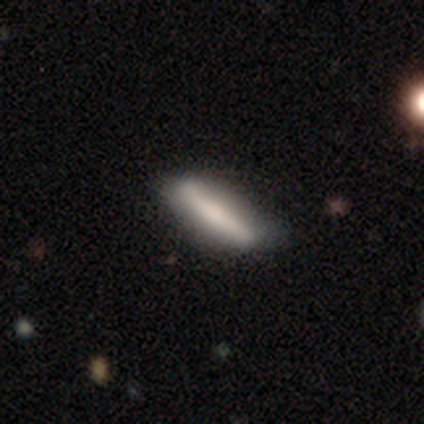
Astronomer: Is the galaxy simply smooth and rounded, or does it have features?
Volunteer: smooth — 68%.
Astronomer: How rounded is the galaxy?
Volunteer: cigar-shaped — 72%.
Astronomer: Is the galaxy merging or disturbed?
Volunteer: none — 32% (runner-up: minor disturbance, 15%).